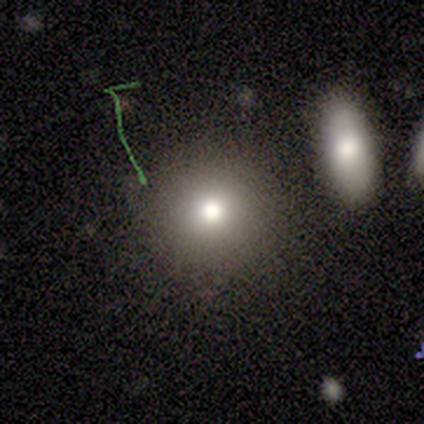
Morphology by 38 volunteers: Smooth or featured?
  - smooth: 71% *
  - star or artifact: 18%
  - featured or disk: 11%
How rounded?
  - round: 93% *
  - in between: 7%
  - cigar-shaped: 0%
Merging?
  - none: 77% *
  - merger: 13%
  - minor disturbance: 10%
  - major disturbance: 0%